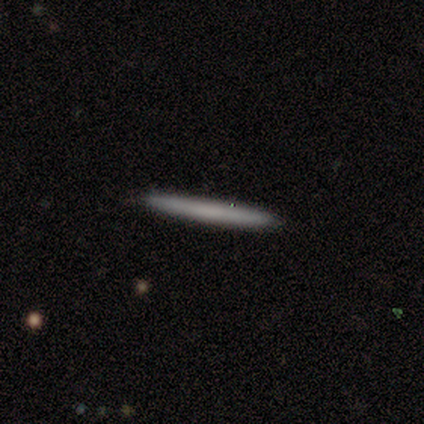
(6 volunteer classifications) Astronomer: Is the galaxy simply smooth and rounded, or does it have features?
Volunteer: smooth — 83%.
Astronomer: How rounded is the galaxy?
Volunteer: cigar-shaped — 100%.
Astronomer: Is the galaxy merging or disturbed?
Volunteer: none — 100%.